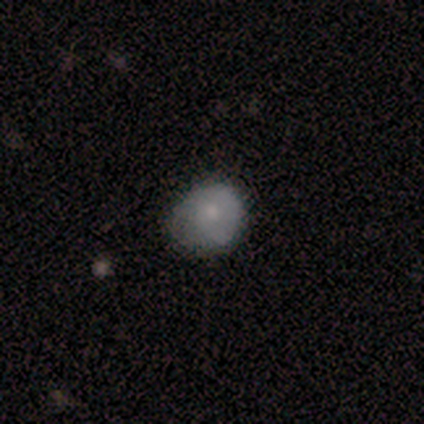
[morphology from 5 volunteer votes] smooth 60%, featured or disk 40%, star or artifact 0%. Down the decision tree: how rounded — in between (67%); merging — none (60%).